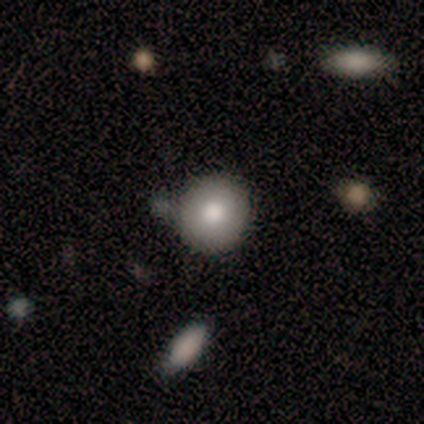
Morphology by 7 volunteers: Smooth or featured: smooth — 71% (featured or disk — 29%)
How rounded: round — 100%
Merging: none — 57% (minor disturbance — 29%)